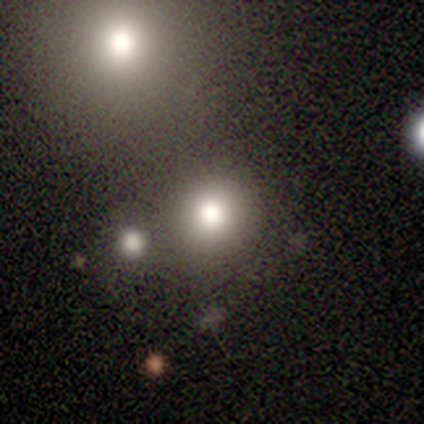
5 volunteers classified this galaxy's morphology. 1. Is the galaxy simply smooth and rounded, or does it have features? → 60% smooth, 20% featured or disk, 20% star or artifact.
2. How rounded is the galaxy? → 67% round, 33% in between, 0% cigar-shaped.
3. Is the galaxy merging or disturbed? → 50% none, 25% minor disturbance, 25% merger, 0% major disturbance.